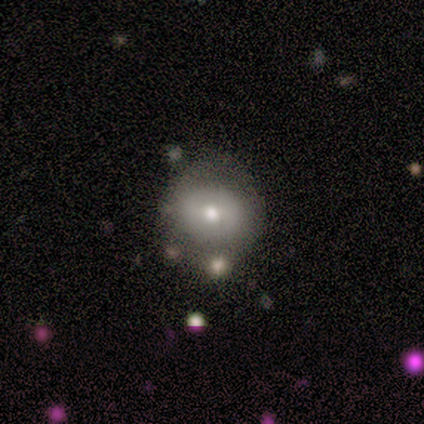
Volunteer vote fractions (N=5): smooth-or-featured: featured or disk: 60% | smooth: 40% | star or artifact: 0%
  disk-edge-on: yes: 67% | no: 33%
    edge-on-bulge: rounded: 100% | boxy: 0% | none: 0%
  merging: none: 100% | minor disturbance: 0% | major disturbance: 0% | merger: 0%